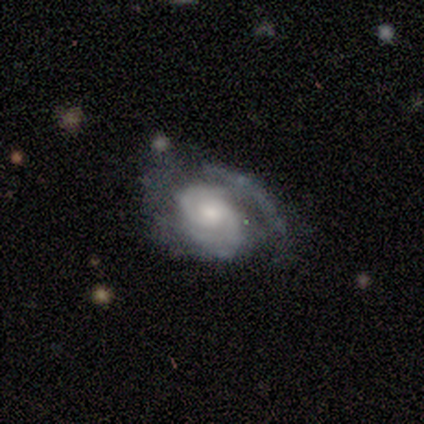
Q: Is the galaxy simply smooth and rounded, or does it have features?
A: featured or disk — 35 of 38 (92%).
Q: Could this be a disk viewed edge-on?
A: no — 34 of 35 (97%).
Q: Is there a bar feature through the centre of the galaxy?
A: no — 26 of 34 (76%).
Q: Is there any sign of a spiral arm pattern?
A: yes — 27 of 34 (79%).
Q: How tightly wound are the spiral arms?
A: tight — 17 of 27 (63%).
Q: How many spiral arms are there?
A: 2 — 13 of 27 (48%).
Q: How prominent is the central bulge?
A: moderate — 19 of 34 (56%).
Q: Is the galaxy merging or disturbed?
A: none — 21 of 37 (57%).